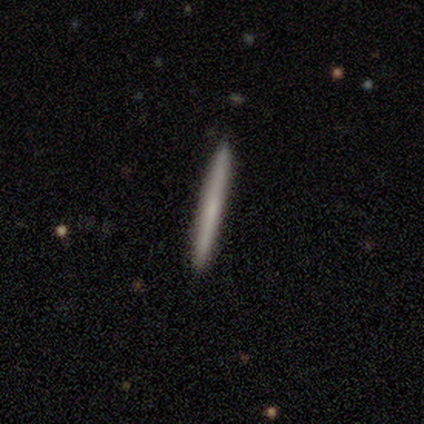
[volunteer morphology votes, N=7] Overall: smooth (71%). How rounded: cigar-shaped (100%). Merging: none (100%).